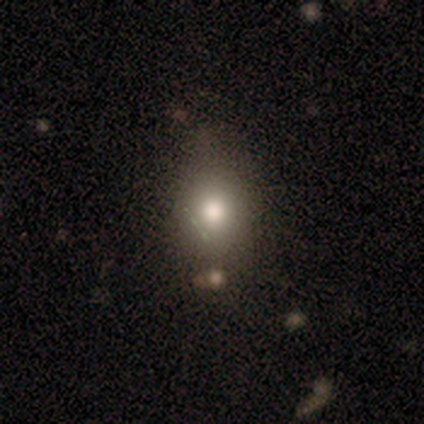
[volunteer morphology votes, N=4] Smooth or featured?
  - smooth: 100% *
  - featured or disk: 0%
  - star or artifact: 0%
How rounded?
  - round: 100% *
  - in between: 0%
  - cigar-shaped: 0%
Merging?
  - none: 100% *
  - minor disturbance: 0%
  - major disturbance: 0%
  - merger: 0%